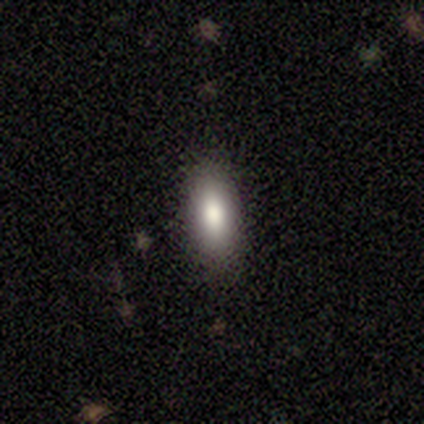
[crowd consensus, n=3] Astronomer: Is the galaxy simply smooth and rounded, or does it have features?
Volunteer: smooth — 67%.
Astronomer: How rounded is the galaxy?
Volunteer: in between — 100%.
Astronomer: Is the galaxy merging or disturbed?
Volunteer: none — 100%.